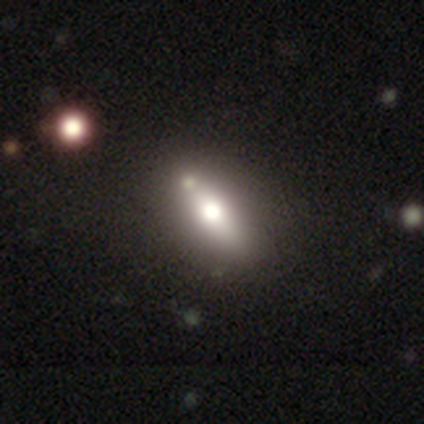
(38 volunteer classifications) Smooth or featured?
  - smooth: 55% *
  - featured or disk: 39%
  - star or artifact: 5%
How rounded?
  - in between: 48% *
  - cigar-shaped: 43%
  - round: 10%
Merging?
  - none: 56% *
  - merger: 11%
  - minor disturbance: 8%
  - major disturbance: 3%